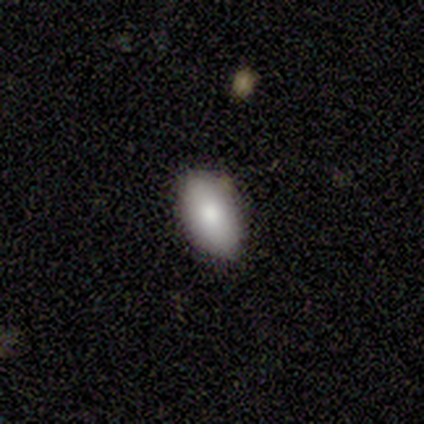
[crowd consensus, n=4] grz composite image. It shows a smooth galaxy with no disk features (100%) that is in between round and cigar-shaped (100%). Merging: none (100%).